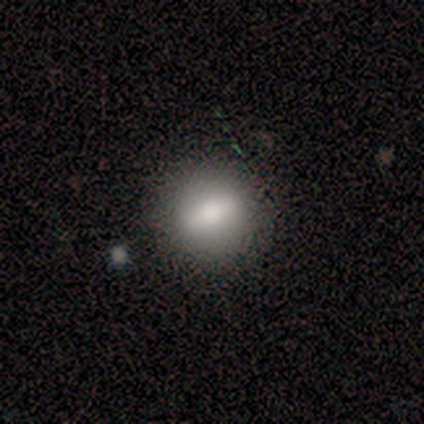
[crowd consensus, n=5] smooth-or-featured: smooth: 60% | featured or disk: 20% | star or artifact: 20%
  how-rounded: round: 67% | in between: 33% | cigar-shaped: 0%
  merging: none: 100% | minor disturbance: 0% | major disturbance: 0% | merger: 0%